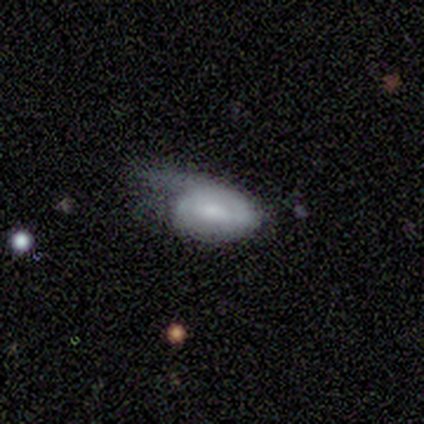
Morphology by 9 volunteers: Volunteers were most divided on "bar" (2-way tie): weak: 40%, no: 40%, strong: 20%. More confident: edge-on disk — no (100%); spiral arms — no (80%); merging — major disturbance (71%); bulge size — small (60%); smooth or featured — featured or disk (56%).